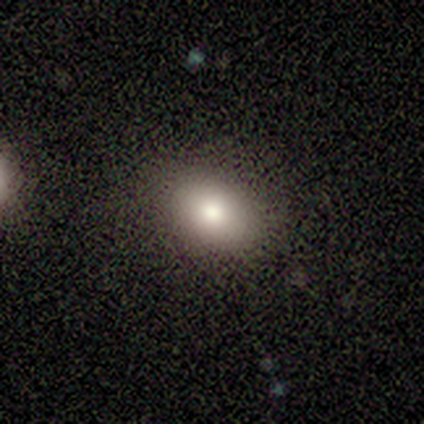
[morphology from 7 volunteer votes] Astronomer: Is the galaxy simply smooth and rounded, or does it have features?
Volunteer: smooth — 71%.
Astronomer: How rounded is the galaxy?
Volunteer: in between — 100%.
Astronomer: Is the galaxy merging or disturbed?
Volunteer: none — 83%.